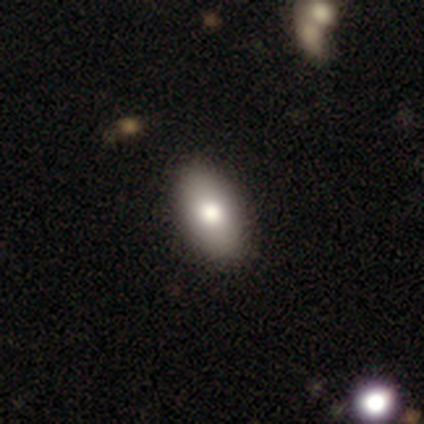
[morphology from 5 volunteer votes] Smooth or featured: smooth — 80% (star or artifact — 20%)
How rounded: in between — 100%
Merging: none — 100%